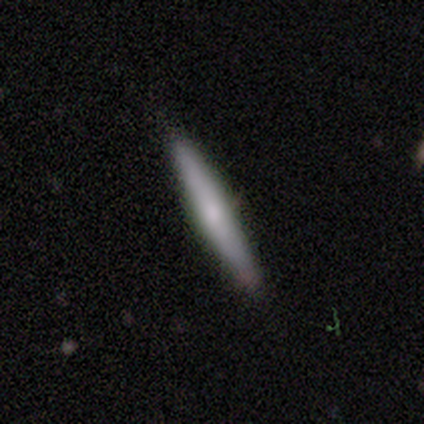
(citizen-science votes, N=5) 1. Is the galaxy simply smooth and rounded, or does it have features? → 60% featured or disk, 40% smooth, 0% star or artifact.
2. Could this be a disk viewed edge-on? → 100% yes, 0% no.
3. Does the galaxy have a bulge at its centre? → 67% none, 33% boxy, 0% rounded.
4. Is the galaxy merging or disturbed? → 100% none, 0% minor disturbance, 0% major disturbance, 0% merger.